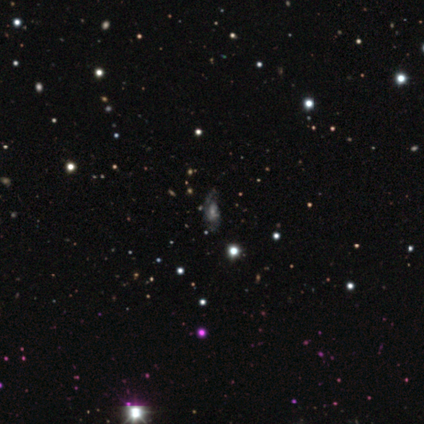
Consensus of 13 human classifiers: smooth-or-featured: featured or disk: 54% | star or artifact: 38% | smooth: 8%
  disk-edge-on: no: 100% | yes: 0%
    bar: no: 100% | strong: 0% | weak: 0%
    has-spiral-arms: yes: 86% | no: 14%
      spiral-winding: loose: 67% | tight: 33% | medium: 0%
      spiral-arm-count: 2: 50% | 1: 17% | more than 4: 17% | can't tell: 17% | 3: 0% | 4: 0%
    bulge-size: small: 43% | moderate: 29% | large: 14% | none: 14% | dominant: 0%
  merging: none: 62% | minor disturbance: 25% | major disturbance: 12% | merger: 0%